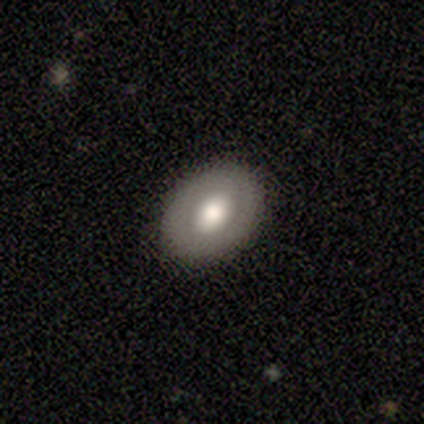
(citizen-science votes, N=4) Morphology: type=smooth (75%); roundness=in between (67%); merging=none (100%).